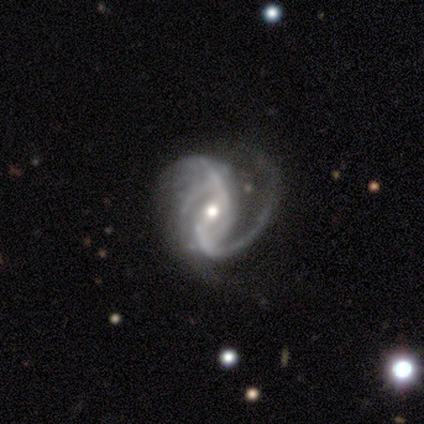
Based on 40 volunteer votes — This is clearly a featured or disk galaxy (95%). It is clearly not viewed edge-on (100%). Bar: marginally weak (45%). Spiral arm pattern: clearly yes (97%). Spiral arm count: possibly 2 (49%). Spiral winding: possibly medium (49%). Central bulge: likely moderate (63%). Merging: marginally major disturbance (45%).